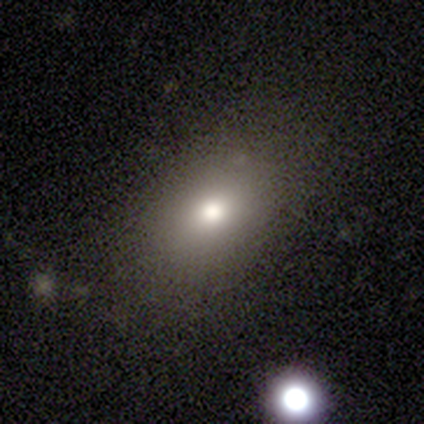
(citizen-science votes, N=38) Q: Smooth or featured?
A: smooth (61%); runner-up: star or artifact (29%)
Q: How rounded?
A: in between (70%); runner-up: round (30%)
Q: Merging?
A: none (93%); runner-up: minor disturbance (4%)